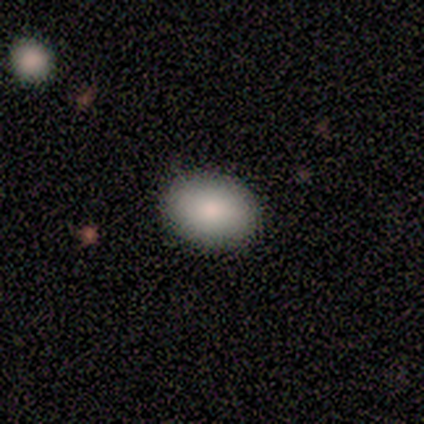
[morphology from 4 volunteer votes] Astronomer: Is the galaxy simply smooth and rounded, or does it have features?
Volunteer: smooth — 75%.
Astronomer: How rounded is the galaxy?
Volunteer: in between — 67%.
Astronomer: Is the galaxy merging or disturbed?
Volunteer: none — 100%.